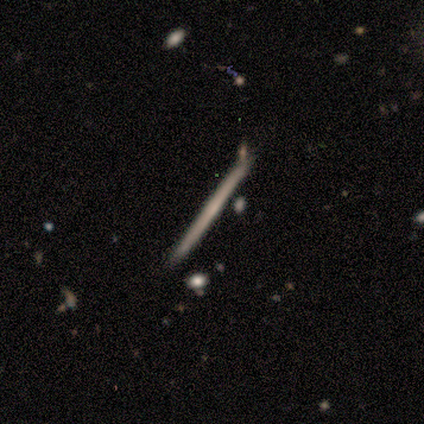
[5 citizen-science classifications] featured or disk 60%, smooth 40%, star or artifact 0%. Down the decision tree: edge-on disk — yes (100%); edge-on bulge — none (100%); merging — none (80%).